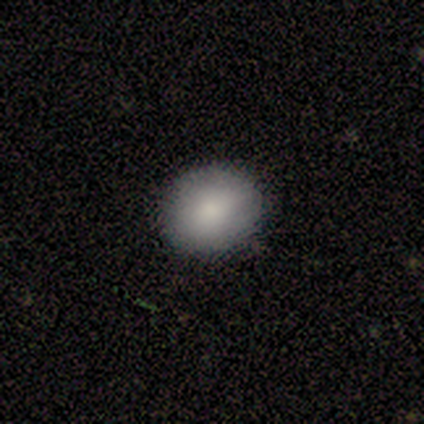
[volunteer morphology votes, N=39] smooth_or_featured: smooth (p=0.90) [alt: featured or disk p=0.05]
how_rounded: round (p=0.63) [alt: in between p=0.37]
merging: none (p=0.84) [alt: minor disturbance p=0.14]